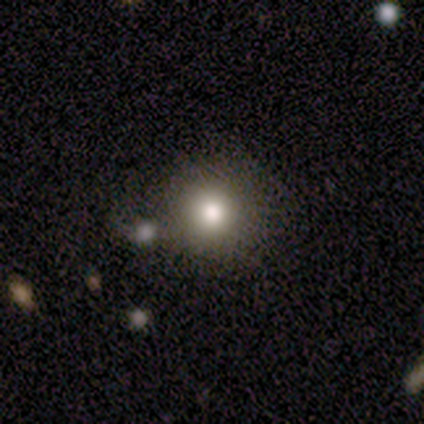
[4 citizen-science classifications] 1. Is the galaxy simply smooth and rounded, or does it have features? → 75% smooth, 25% featured or disk, 0% star or artifact.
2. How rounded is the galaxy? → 100% round, 0% in between, 0% cigar-shaped.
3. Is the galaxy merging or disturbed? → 75% none, 25% minor disturbance, 0% major disturbance, 0% merger.